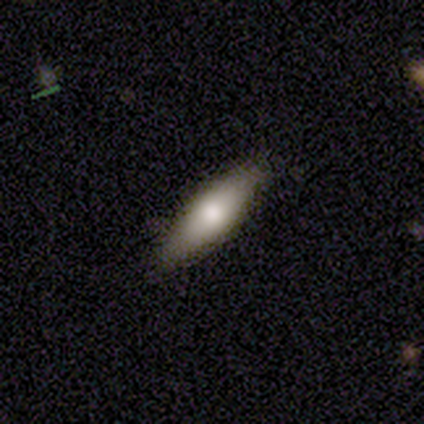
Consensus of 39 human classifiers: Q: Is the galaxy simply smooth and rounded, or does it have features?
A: smooth — 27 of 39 (69%).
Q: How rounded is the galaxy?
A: cigar-shaped — 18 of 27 (67%).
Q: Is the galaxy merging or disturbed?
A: none — 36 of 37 (97%).